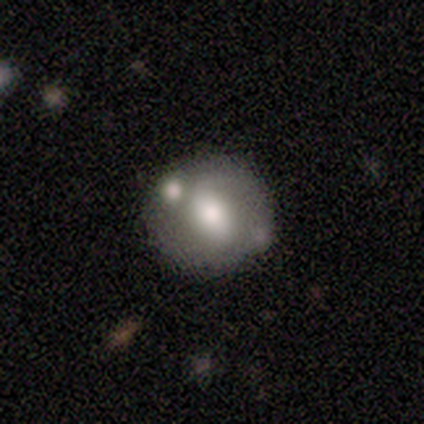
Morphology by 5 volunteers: A smooth galaxy with no disk features (80%) that is round (100%).

Vote fractions:
- Smooth or featured? smooth: 80% / featured or disk: 20% / star or artifact: 0%
- How rounded? round: 100% / in between: 0% / cigar-shaped: 0%
- Merging? none: 60% / minor disturbance: 20% / merger: 20% / major disturbance: 0%